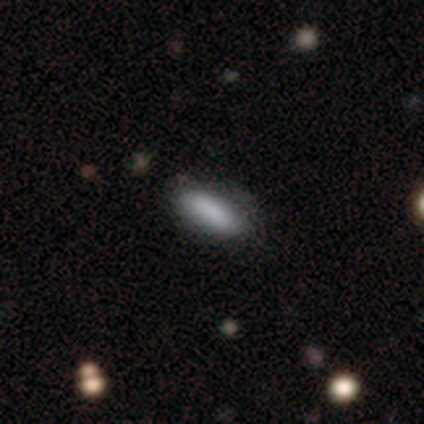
Smooth or featured? smooth (100%)
How rounded? in between (100%)
Merging? none (100%)